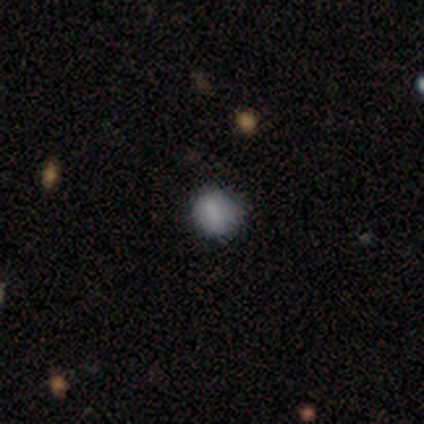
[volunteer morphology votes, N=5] A smooth galaxy with no disk features (100%) that is round (80%).

Vote fractions:
- Smooth or featured? smooth: 100% / featured or disk: 0% / star or artifact: 0%
- How rounded? round: 80% / in between: 20% / cigar-shaped: 0%
- Merging? none: 80% / minor disturbance: 20% / major disturbance: 0% / merger: 0%